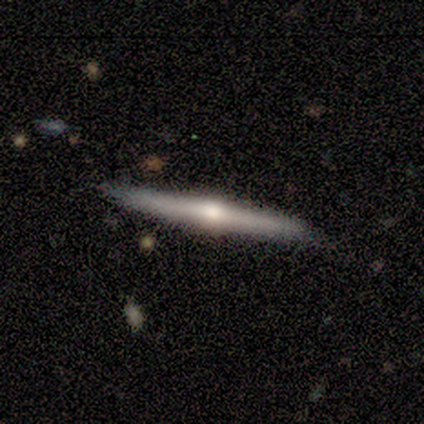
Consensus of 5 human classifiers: Smooth or featured? 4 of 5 (80%) said featured or disk. Edge-on disk? 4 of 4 (100%) said yes. Edge-on bulge? 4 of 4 (100%) said rounded. Merging? 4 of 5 (80%) said none.